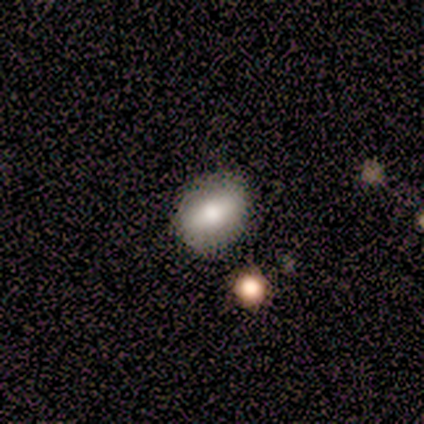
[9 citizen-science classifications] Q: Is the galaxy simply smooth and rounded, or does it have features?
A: smooth — 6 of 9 (67%).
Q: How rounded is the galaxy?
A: in between — 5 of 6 (83%).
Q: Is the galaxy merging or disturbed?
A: none — 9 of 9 (100%).